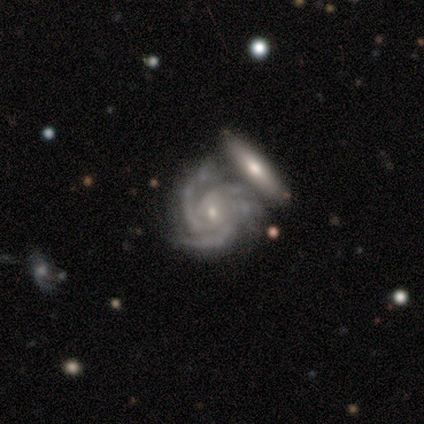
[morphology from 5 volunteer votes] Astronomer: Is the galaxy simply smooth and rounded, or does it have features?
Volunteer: featured or disk — 100%.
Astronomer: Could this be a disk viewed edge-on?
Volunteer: no — 100%.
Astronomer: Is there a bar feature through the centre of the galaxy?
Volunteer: no — 80%.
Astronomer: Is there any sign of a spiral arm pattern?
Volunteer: yes — 100%.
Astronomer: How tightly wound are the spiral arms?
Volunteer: medium — 60% (runner-up: tight, 40%).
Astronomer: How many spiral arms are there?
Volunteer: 3 — 80%.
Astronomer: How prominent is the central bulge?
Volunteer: small — 100%.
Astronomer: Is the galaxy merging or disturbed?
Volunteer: none — 60% (runner-up: merger, 40%).